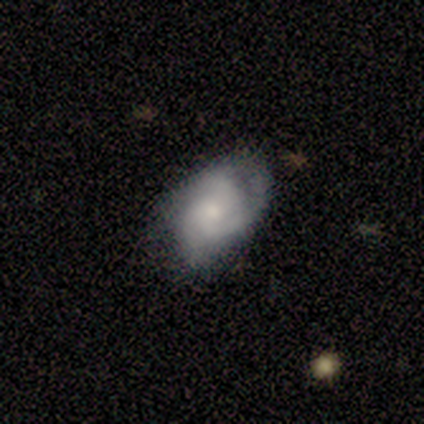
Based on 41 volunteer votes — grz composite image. It shows a featured or disk galaxy (68%) with no bar (93%), 3 (52%) tight (52%) spiral arms (96%) and a moderate central bulge (39%, tied with small). Merging: none (71%).